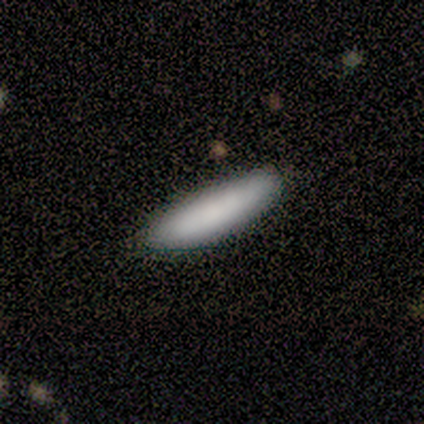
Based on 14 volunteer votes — Smooth or featured? smooth (93%)
How rounded? cigar-shaped (85%)
Merging? none (71%)